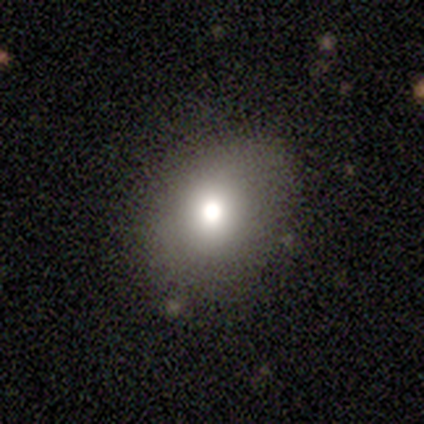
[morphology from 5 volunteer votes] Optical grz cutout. It shows a smooth galaxy with no disk features (40%, tied with star or artifact) that is round (100%). Merging: none (100%).